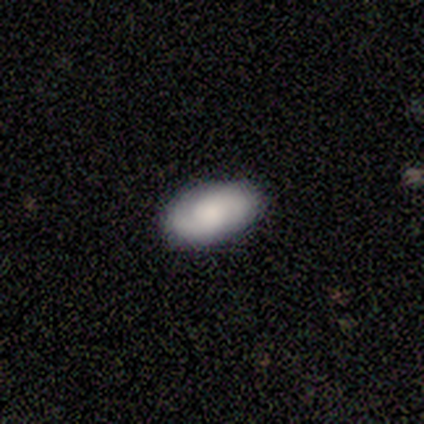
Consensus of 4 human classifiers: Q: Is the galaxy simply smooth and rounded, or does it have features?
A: smooth — 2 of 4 (50%, tied with featured or disk).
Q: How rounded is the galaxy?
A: in between — 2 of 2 (100%).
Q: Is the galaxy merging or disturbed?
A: none — 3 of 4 (75%).